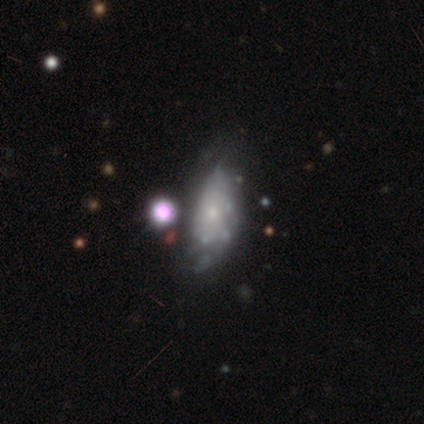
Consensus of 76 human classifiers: Q: Smooth or featured?
A: featured or disk (51%); runner-up: smooth (33%)
Q: Edge-on disk?
A: no (97%); runner-up: yes (3%)
Q: Bar?
A: no (97%); runner-up: weak (3%)
Q: Spiral arms?
A: no (74%); runner-up: yes (26%)
Q: Bulge size?
A: small (71%); runner-up: none (24%)
Q: Merging?
A: minor disturbance (38%); runner-up: none (20%)